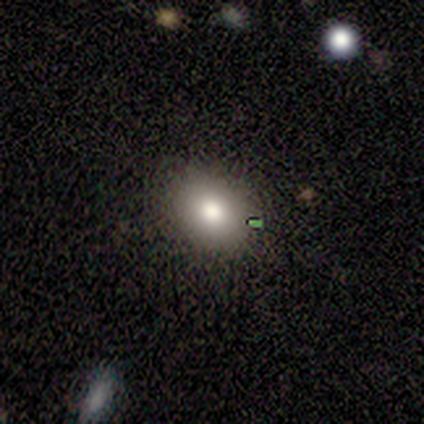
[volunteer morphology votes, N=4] type=smooth (50%, tied with star or artifact); roundness=in between (100%); merging=none (50%, tied with merger).